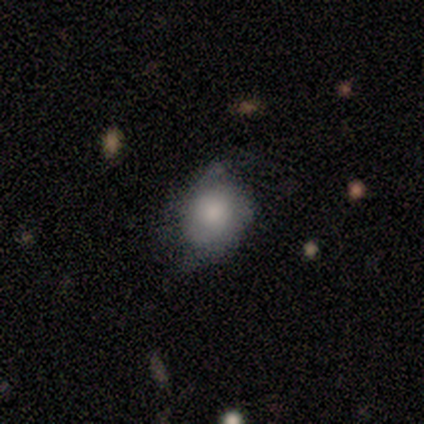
This is clearly a smooth galaxy (86%). How rounded: likely round (67%). Merging: possibly none (57%).